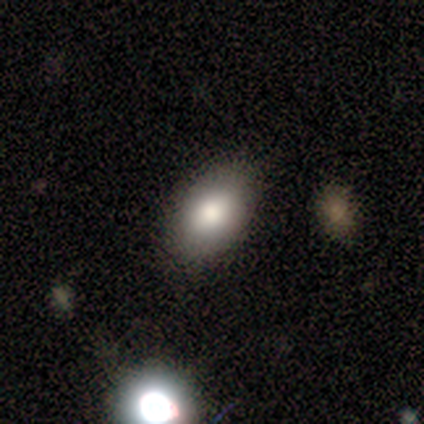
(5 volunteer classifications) Q: Smooth or featured?
A: smooth (80%); runner-up: star or artifact (20%)
Q: How rounded?
A: in between (100%)
Q: Merging?
A: none (100%)